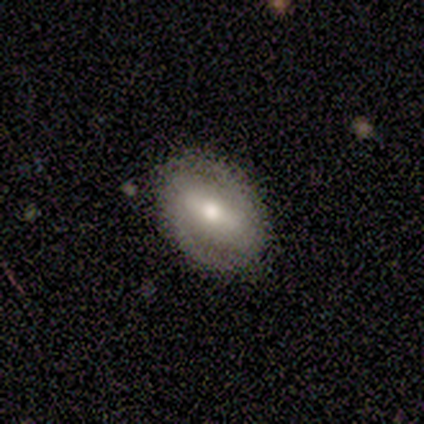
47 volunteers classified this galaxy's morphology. This is likely a featured or disk galaxy (68%). It is clearly not viewed edge-on (91%). Bar: possibly strong (59%). Spiral arm pattern: likely yes (79%). Spiral arm count: clearly 2 (91%). Spiral winding: possibly tight (52%). Central bulge: likely moderate (72%). Merging: clearly none (89%).